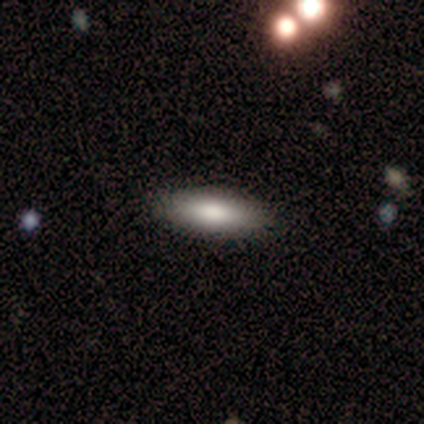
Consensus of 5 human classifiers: Overall: smooth (100%). How rounded: cigar-shaped (60%; in between 40%). Merging: none (100%).